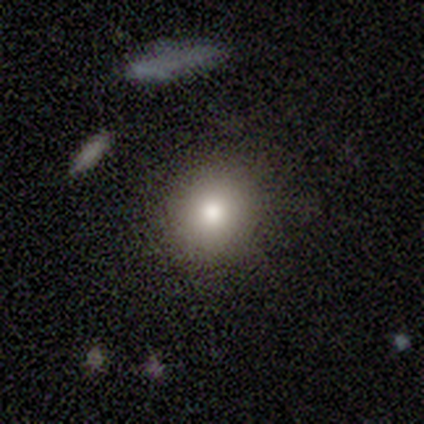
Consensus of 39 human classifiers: smooth-or-featured: smooth: 82% | featured or disk: 13% | star or artifact: 5%
  how-rounded: round: 88% | in between: 12% | cigar-shaped: 0%
  merging: none: 92% | minor disturbance: 5% | major disturbance: 3% | merger: 0%